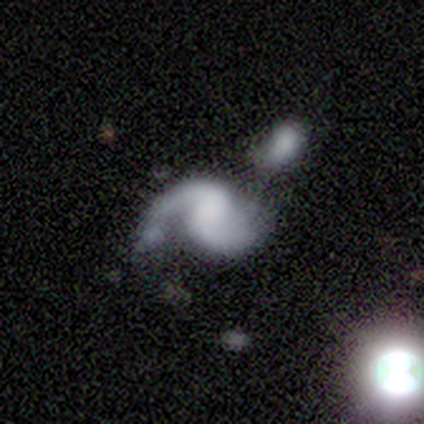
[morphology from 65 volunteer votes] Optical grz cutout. It shows a featured or disk galaxy (75%) with no bar (59%), 2 (84%) loose (52%) spiral arms (90%) and no central bulge (59%). Merging: merger (34%).